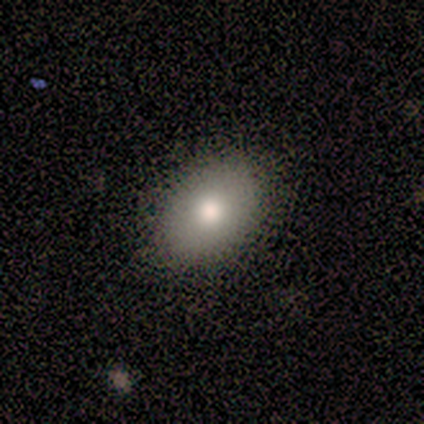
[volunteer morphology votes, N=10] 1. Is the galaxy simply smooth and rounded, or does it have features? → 80% smooth, 20% featured or disk, 0% star or artifact.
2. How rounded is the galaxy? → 100% in between, 0% round, 0% cigar-shaped.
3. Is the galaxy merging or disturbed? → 100% none, 0% minor disturbance, 0% major disturbance, 0% merger.